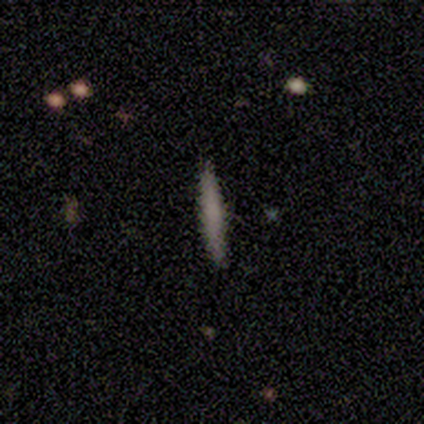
Smooth or featured?
  - smooth: 71% *
  - featured or disk: 18%
  - star or artifact: 11%
How rounded?
  - cigar-shaped: 93% *
  - in between: 7%
  - round: 0%
Merging?
  - none: 94% *
  - minor disturbance: 3%
  - merger: 3%
  - major disturbance: 0%